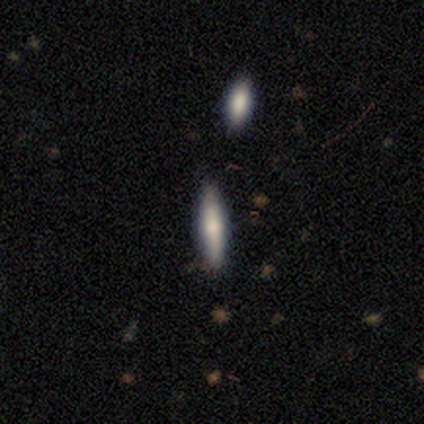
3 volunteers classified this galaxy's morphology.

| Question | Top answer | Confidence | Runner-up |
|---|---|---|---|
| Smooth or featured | smooth | 67% | star or artifact (33%) |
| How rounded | cigar-shaped | 100% | — |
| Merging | none | 100% | — |